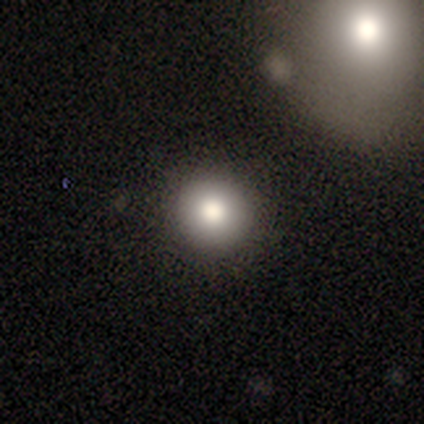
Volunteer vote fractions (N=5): Volunteers were most divided on "merging": none: 75%, merger: 25%, minor disturbance: 0%, major disturbance: 0%. More confident: how rounded — round (100%); smooth or featured — smooth (80%).